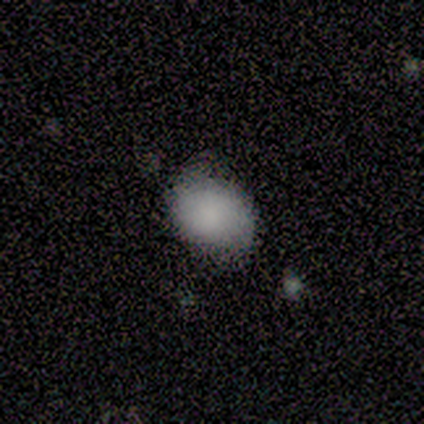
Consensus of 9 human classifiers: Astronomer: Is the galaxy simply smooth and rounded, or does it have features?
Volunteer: smooth — 67%.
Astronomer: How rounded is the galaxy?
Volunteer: in between — 67%.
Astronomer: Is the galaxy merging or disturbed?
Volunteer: none — 75%.